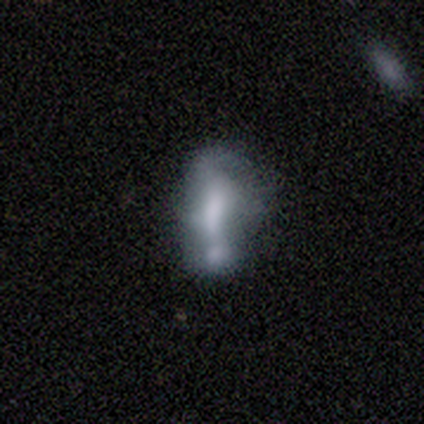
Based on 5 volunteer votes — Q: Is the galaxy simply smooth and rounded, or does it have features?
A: smooth — 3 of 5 (60%).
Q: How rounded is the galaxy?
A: in between — 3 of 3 (100%).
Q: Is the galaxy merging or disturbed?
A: major disturbance — 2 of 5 (40%, tied with merger).